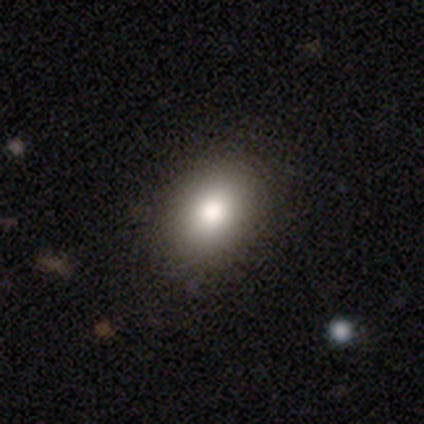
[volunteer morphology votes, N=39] A smooth galaxy with no disk features (87%) that is in between round and cigar-shaped (65%).

Vote fractions:
- Smooth or featured? smooth: 87% / star or artifact: 8% / featured or disk: 5%
- How rounded? in between: 65% / round: 35% / cigar-shaped: 0%
- Merging? none: 86% / minor disturbance: 8% / major disturbance: 6% / merger: 0%